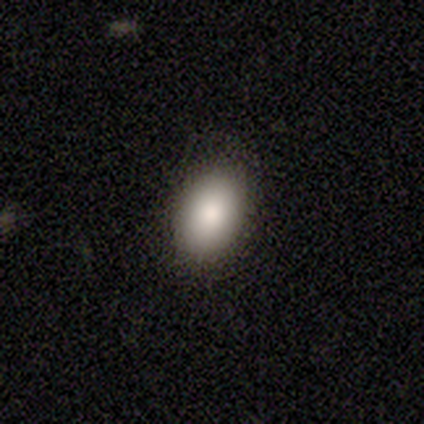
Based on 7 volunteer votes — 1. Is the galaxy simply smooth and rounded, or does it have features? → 86% smooth, 14% star or artifact, 0% featured or disk.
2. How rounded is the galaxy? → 83% in between, 17% cigar-shaped, 0% round.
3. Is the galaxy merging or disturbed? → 50% none (tied), 50% minor disturbance (tied), 0% major disturbance, 0% merger.